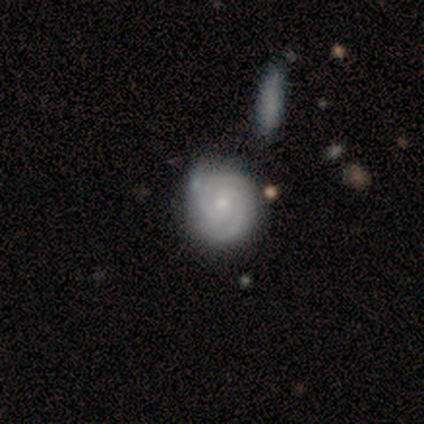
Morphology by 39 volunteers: Q: Smooth or featured?
A: featured or disk (74%); runner-up: smooth (18%)
Q: Edge-on disk?
A: no (100%)
Q: Bar?
A: no (79%); runner-up: weak (21%)
Q: Spiral arms?
A: yes (97%); runner-up: no (3%)
Q: Spiral winding?
A: tight (82%); runner-up: medium (18%)
Q: Spiral arm count?
A: 2 (89%); runner-up: can't tell (11%)
Q: Bulge size?
A: small (59%); runner-up: moderate (31%)
Q: Merging?
A: none (67%); runner-up: minor disturbance (22%)